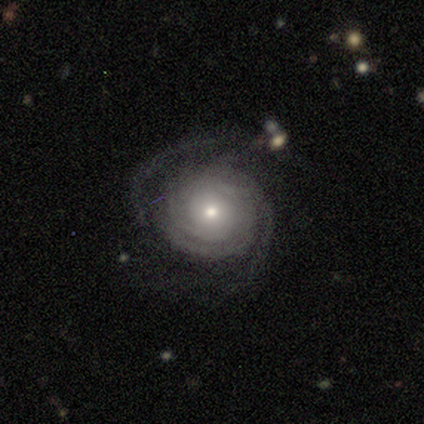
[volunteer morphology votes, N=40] Volunteers were most divided on "spiral arm count": 2: 45%, can't tell: 39%, 3: 6%, 4: 6%, more than 4: 3%, 1: 0%. More confident: edge-on disk — no (100%); spiral arms — yes (100%); bar — no (87%); smooth or featured — featured or disk (78%); merging — none (68%); spiral winding — tight (61%); bulge size — moderate (52%).